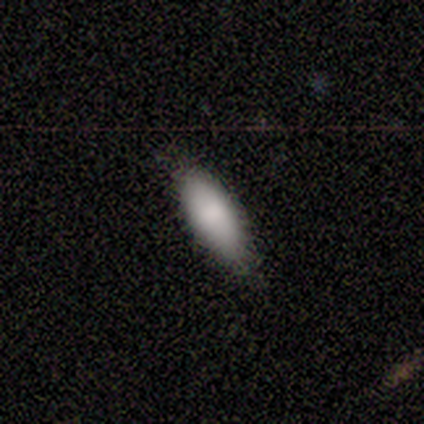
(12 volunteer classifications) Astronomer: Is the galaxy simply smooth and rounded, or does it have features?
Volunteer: smooth — 83%.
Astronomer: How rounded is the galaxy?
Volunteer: in between — 80%.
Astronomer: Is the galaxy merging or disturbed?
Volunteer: none — 91%.